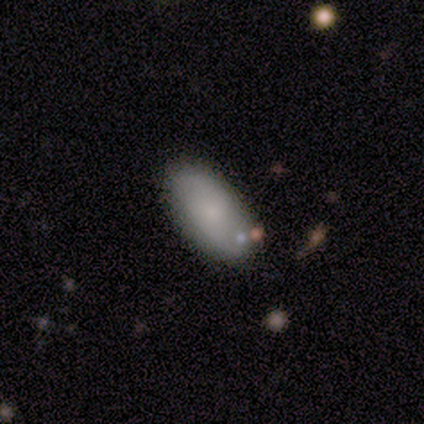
smooth 80%, featured or disk 20%, star or artifact 0%. Down the decision tree: how rounded — in between (100%); merging — none (80%).